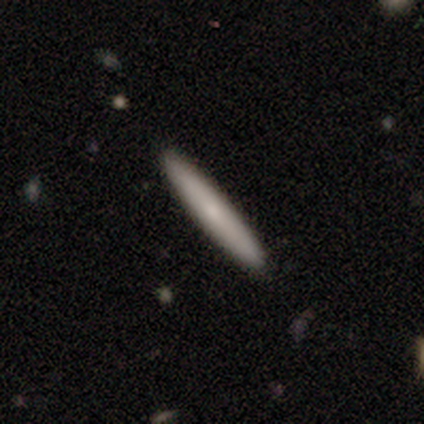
smooth 73%, featured or disk 27%, star or artifact 0%. Down the decision tree: how rounded — cigar-shaped (100%); merging — none (93%).